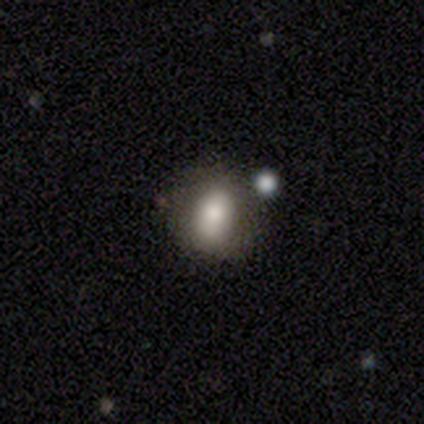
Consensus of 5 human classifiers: A smooth galaxy with no disk features (60%) that is round (100%). Merging: none (75%).